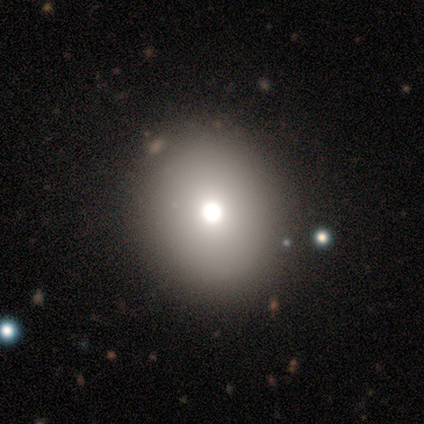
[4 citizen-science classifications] Q: Smooth or featured?
A: smooth (75%); runner-up: star or artifact (25%)
Q: How rounded?
A: round (100%)
Q: Merging?
A: none (100%)